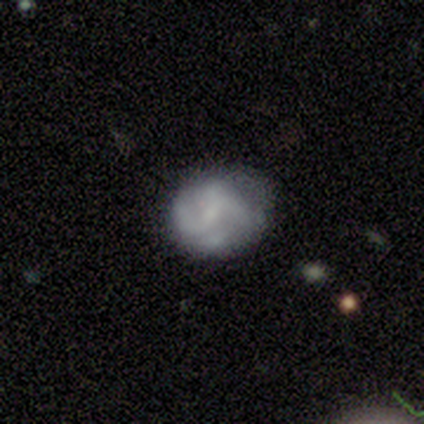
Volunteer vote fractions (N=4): A featured or disk galaxy (75%) with no bar (67%), 2 (33%, tied with 4 and can't tell) medium (67%) spiral arms (100%) and no central bulge (67%). Merging: none (50%, tied with minor disturbance).